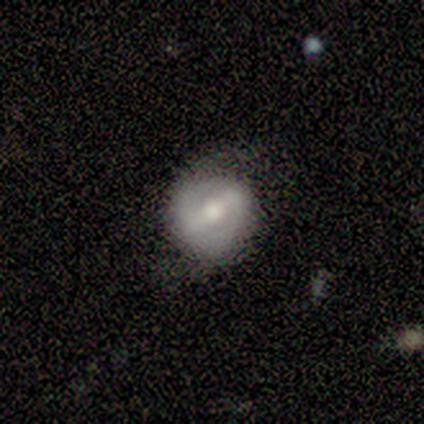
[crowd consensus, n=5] This appears to be a featured or disk galaxy (100%) with a strong bar (100%), 2 (50%, tied with can't tell) medium (100%) spiral arms (67%) and a moderate central bulge (67%). Merging: none (60%).